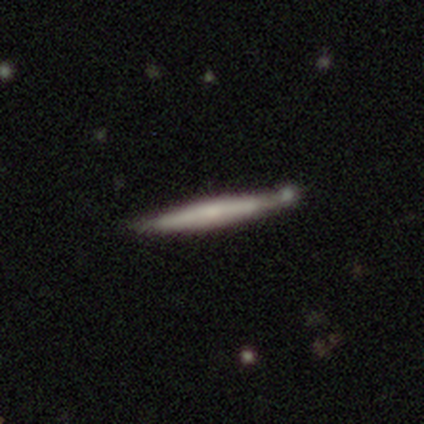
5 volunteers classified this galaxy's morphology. Q: Smooth or featured?
A: featured or disk (60%); runner-up: smooth (40%)
Q: Edge-on disk?
A: yes (100%)
Q: Edge-on bulge?
A: none (67%); runner-up: rounded (33%)
Q: Merging?
A: none (80%); runner-up: minor disturbance (20%)